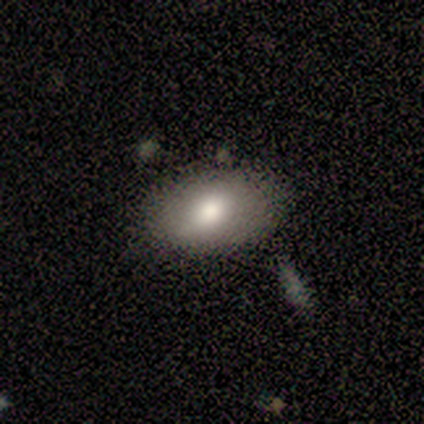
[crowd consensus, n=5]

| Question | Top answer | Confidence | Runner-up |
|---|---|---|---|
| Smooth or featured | smooth | 80% | star or artifact (20%) |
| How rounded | in between | 100% | — |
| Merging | none | 100% | — |